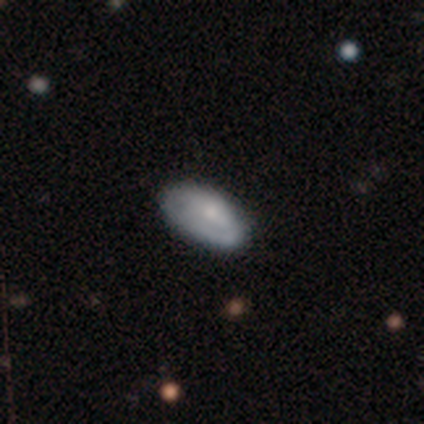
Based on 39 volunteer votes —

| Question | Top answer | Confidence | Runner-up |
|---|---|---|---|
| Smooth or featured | smooth | 67% | featured or disk (18%) |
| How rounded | in between | 96% | round (4%) |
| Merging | none | 70% | minor disturbance (27%) |